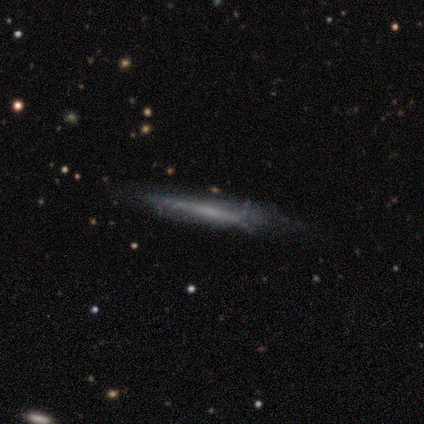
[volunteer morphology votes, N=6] smooth_or_featured: featured or disk (p=0.83) [alt: smooth p=0.17]
disk_edge_on: yes (p=0.80) [alt: no p=0.20]
edge_on_bulge: boxy (p=0.75) [alt: rounded p=0.25]
merging: none (p=0.50) [tied with: minor disturbance p=0.50]